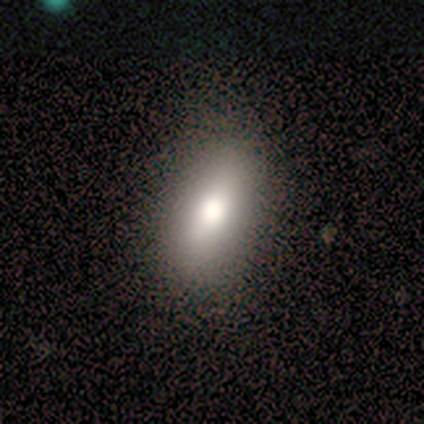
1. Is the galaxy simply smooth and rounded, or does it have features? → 80% smooth, 20% featured or disk, 0% star or artifact.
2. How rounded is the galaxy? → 75% in between, 25% cigar-shaped, 0% round.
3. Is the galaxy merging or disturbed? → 100% none, 0% minor disturbance, 0% major disturbance, 0% merger.